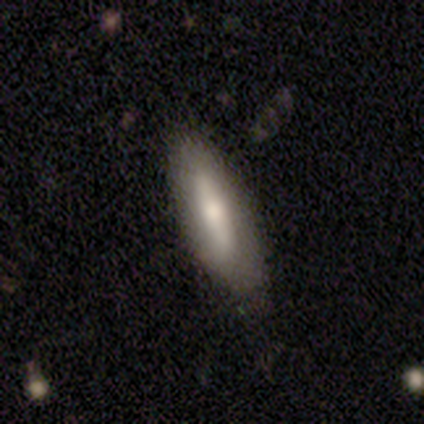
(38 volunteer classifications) Smooth or featured?
  - smooth: 63% *
  - featured or disk: 32%
  - star or artifact: 5%
How rounded?
  - in between: 50% * (tied)
  - cigar-shaped: 50% * (tied)
  - round: 0%
Merging?
  - none: 81% *
  - minor disturbance: 19%
  - major disturbance: 0%
  - merger: 0%